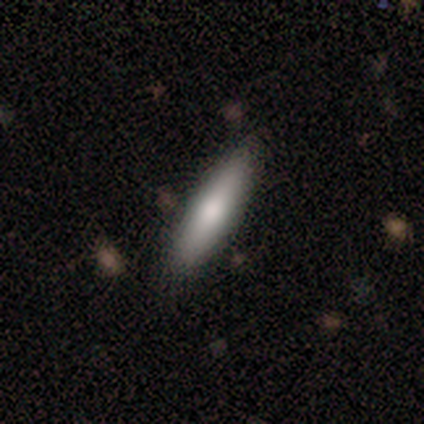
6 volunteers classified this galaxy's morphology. smooth 100%, featured or disk 0%, star or artifact 0%. Down the decision tree: how rounded — cigar-shaped (67%); merging — none (83%).